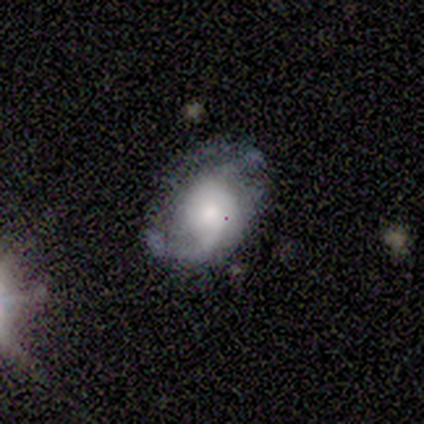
A smooth galaxy with no disk features (67%) that is in between round and cigar-shaped (100%).

Vote fractions:
- Smooth or featured? smooth: 67% / featured or disk: 33% / star or artifact: 0%
- How rounded? in between: 100% / round: 0% / cigar-shaped: 0%
- Merging? none: 33% (tied) / minor disturbance: 33% (tied) / major disturbance: 33% (tied) / merger: 0%